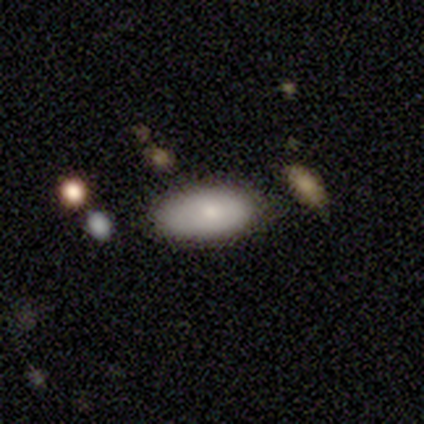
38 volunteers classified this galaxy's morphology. Smooth or featured?
  - smooth: 87% *
  - featured or disk: 13%
  - star or artifact: 0%
How rounded?
  - in between: 91% *
  - cigar-shaped: 9%
  - round: 0%
Merging?
  - none: 71% *
  - minor disturbance: 29%
  - major disturbance: 0%
  - merger: 0%